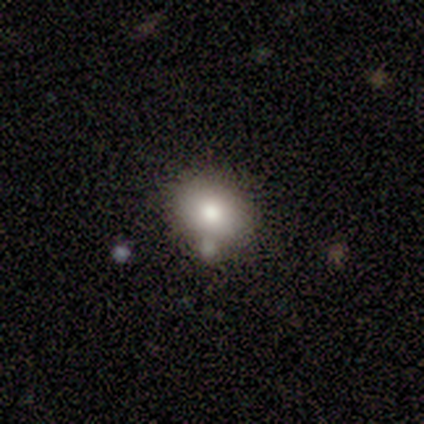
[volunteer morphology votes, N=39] Volunteers were most divided on "how rounded": in between: 53%, round: 47%, cigar-shaped: 0%. More confident: smooth or featured — smooth (82%); merging — none (77%).